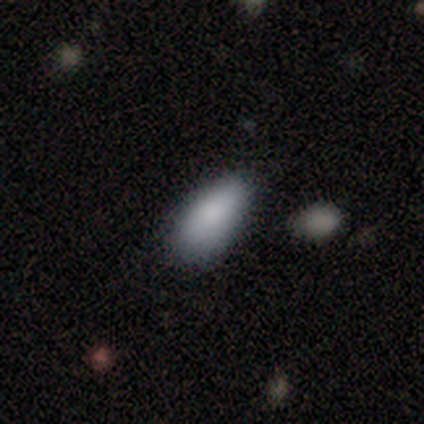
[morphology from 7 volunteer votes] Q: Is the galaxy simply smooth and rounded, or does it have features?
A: smooth — 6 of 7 (86%).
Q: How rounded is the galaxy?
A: in between — 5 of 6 (83%).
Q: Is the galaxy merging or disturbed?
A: none — 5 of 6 (83%).